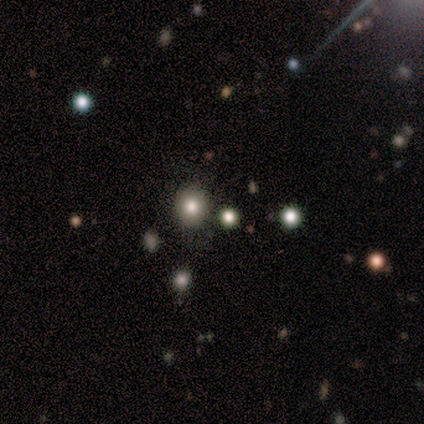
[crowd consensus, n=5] smooth 60%, star or artifact 40%, featured or disk 0%. Down the decision tree: how rounded — round (100%); merging — none (67%).